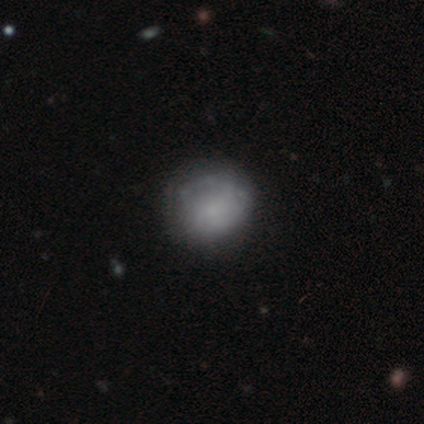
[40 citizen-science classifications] smooth_or_featured: featured or disk (p=0.60) [alt: smooth p=0.40]
disk_edge_on: no (p=0.92) [alt: yes p=0.08]
bar: no (p=0.73) [alt: weak p=0.23]
has_spiral_arms: yes (p=0.73) [alt: no p=0.27]
spiral_winding: medium (p=0.50) [alt: tight p=0.31]
spiral_arm_count: can't tell (p=0.62) [alt: 1 p=0.19]
bulge_size: none (p=0.59) [alt: small p=0.23]
merging: none (p=0.53) [alt: minor disturbance p=0.17]